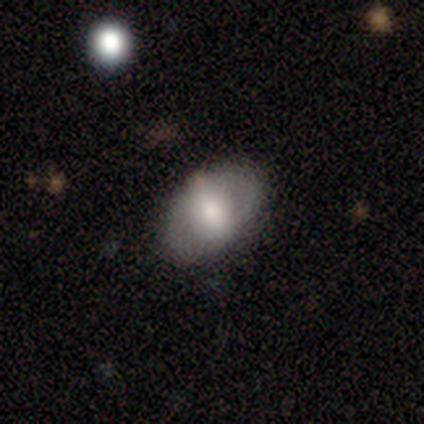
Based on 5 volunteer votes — smooth 80%, featured or disk 20%, star or artifact 0%. Down the decision tree: how rounded — in between (100%); merging — none (80%).